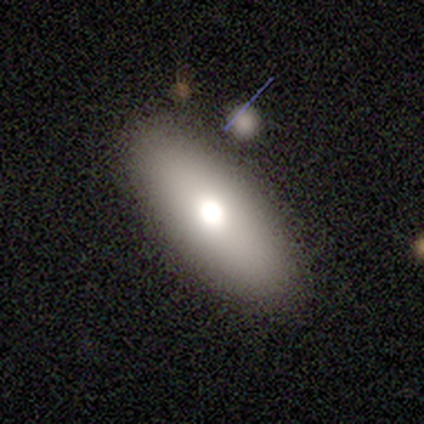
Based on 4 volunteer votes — smooth_or_featured: featured or disk (p=0.50) [alt: smooth p=0.25]
disk_edge_on: no (p=1.00)
bar: no (p=1.00)
has_spiral_arms: no (p=1.00)
bulge_size: large (p=0.50) [tied with: none p=0.50]
merging: none (p=0.67) [alt: minor disturbance p=0.33]